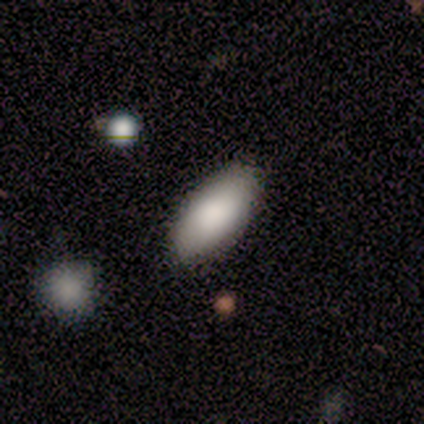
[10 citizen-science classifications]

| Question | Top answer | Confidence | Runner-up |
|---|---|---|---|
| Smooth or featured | smooth | 60% | featured or disk (20%) |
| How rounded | in between | 100% | — |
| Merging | none | 88% | minor disturbance (12%) |